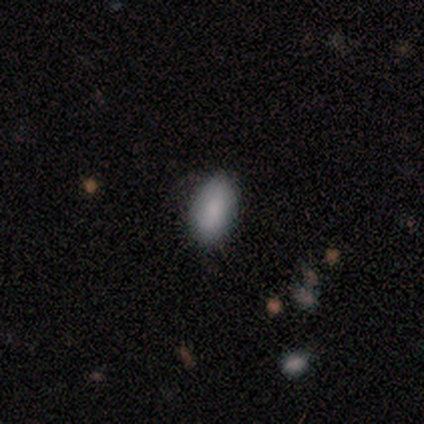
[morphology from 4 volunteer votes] Overall: smooth (100%). How rounded: in between (100%). Merging: none (100%).